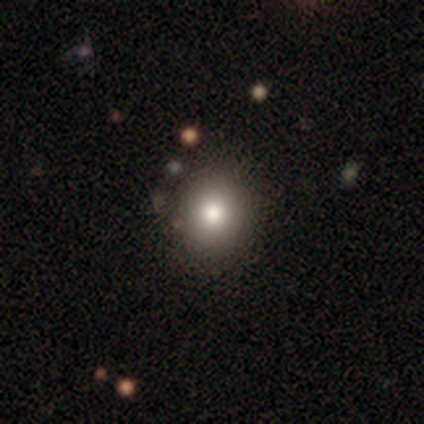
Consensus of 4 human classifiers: Overall: smooth (100%). How rounded: round (75%). Merging: none (100%).